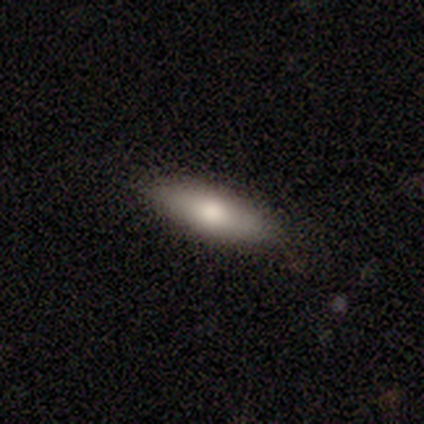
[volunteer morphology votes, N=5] smooth-or-featured: smooth: 60% | featured or disk: 20% | star or artifact: 20%
  how-rounded: cigar-shaped: 67% | in between: 33% | round: 0%
  merging: none: 50% (tied) | minor disturbance: 50% (tied) | major disturbance: 0% | merger: 0%